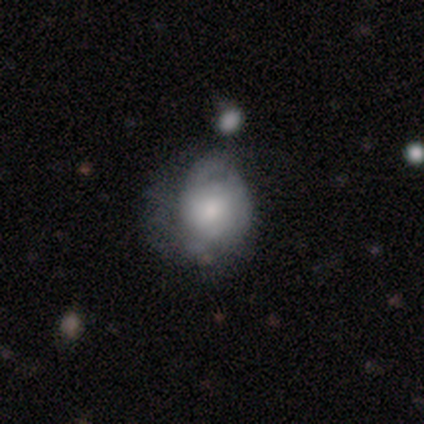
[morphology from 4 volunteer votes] featured or disk 100%, smooth 0%, star or artifact 0%. Down the decision tree: edge-on disk — no (100%); bar — weak (50%, tied with no); spiral arms — yes (50%, tied with no); spiral arm count — can't tell (100%); spiral winding — tight (100%); bulge size — small (50%); merging — none (50%).